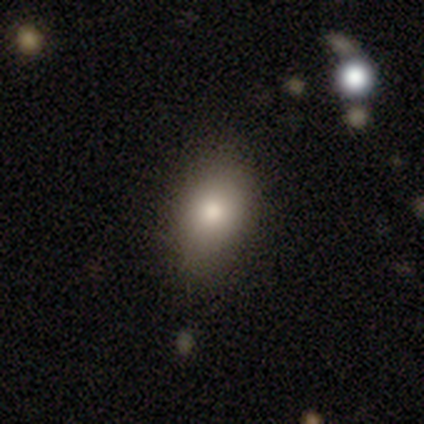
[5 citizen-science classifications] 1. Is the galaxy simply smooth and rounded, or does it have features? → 100% smooth, 0% featured or disk, 0% star or artifact.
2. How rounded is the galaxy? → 60% in between, 40% round, 0% cigar-shaped.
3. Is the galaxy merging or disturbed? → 60% none, 20% minor disturbance, 20% major disturbance, 0% merger.